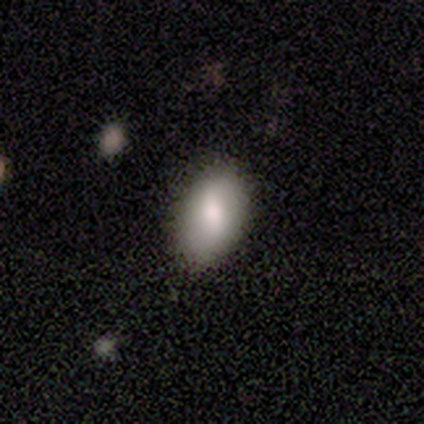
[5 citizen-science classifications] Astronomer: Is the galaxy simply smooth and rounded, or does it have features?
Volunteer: featured or disk — 60%.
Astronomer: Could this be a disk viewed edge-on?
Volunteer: no — 100%.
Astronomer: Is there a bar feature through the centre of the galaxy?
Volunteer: weak — 67%.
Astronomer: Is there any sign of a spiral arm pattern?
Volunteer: no — 67%.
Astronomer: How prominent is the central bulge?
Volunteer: moderate — 100%.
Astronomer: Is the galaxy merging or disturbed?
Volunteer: none — 100%.